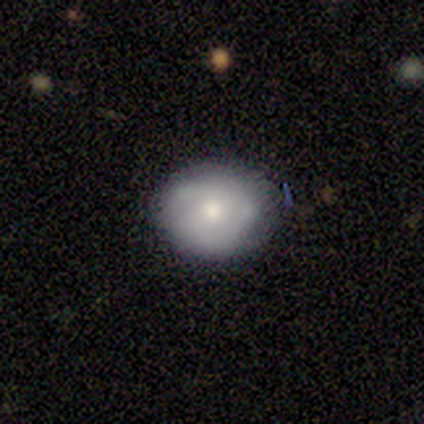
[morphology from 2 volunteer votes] smooth 100%, featured or disk 0%, star or artifact 0%. Down the decision tree: how rounded — round (50%, tied with in between); merging — none (50%, tied with minor disturbance).